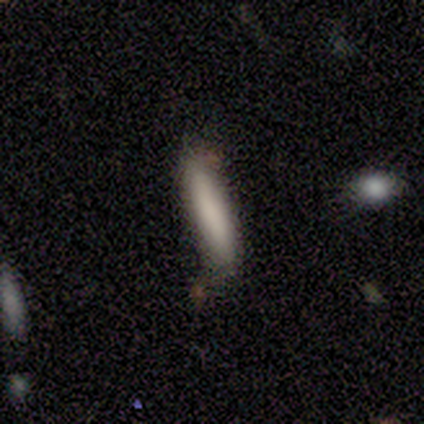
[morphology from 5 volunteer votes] Q: Smooth or featured?
A: smooth (100%)
Q: How rounded?
A: cigar-shaped (100%)
Q: Merging?
A: none (80%); runner-up: minor disturbance (20%)